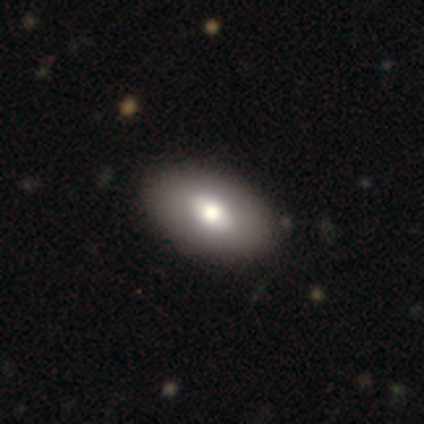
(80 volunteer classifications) Smooth or featured? 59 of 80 (74%) said smooth. How rounded? 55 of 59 (93%) said in between. Merging? 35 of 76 (46%) said none.